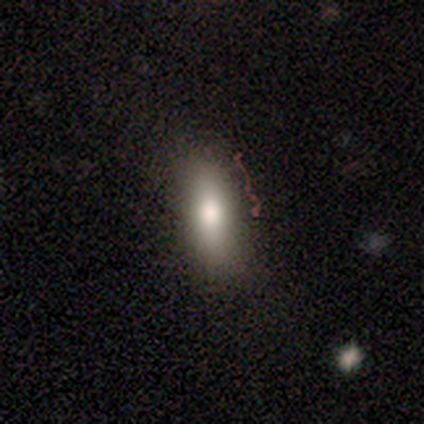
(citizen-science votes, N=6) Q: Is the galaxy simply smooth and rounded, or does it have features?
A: smooth — 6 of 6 (100%).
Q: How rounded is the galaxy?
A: in between — 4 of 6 (67%).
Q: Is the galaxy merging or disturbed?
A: none — 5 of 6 (83%).